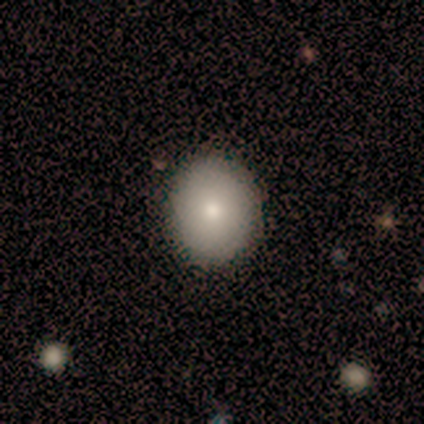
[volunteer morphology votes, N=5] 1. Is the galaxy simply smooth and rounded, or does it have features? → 60% smooth, 40% featured or disk, 0% star or artifact.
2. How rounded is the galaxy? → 67% in between, 33% round, 0% cigar-shaped.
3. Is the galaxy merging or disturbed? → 100% none, 0% minor disturbance, 0% major disturbance, 0% merger.